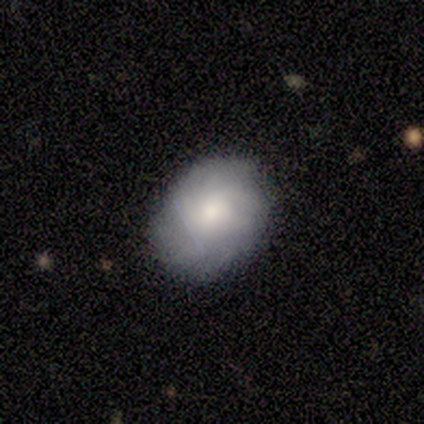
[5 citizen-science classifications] smooth_or_featured: smooth (p=0.40) [tied with: featured or disk p=0.40]
how_rounded: round (p=0.50) [tied with: in between p=0.50]
merging: none (p=0.50) [tied with: major disturbance p=0.50]